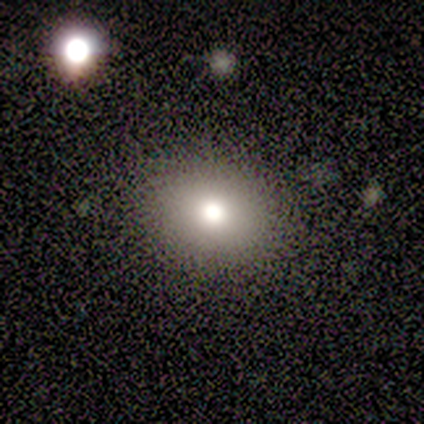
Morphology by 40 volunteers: Smooth or featured? 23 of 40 (57%) said smooth. How rounded? 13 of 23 (57%) said round. Merging? 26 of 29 (90%) said none.